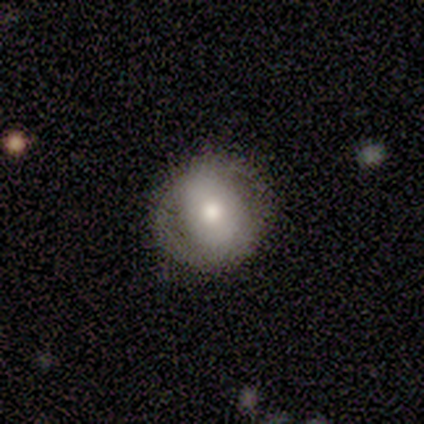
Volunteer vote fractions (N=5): Smooth or featured? smooth (100%)
How rounded? round (80%)
Merging? none (80%)